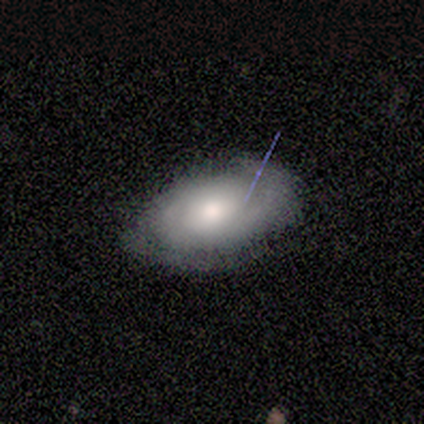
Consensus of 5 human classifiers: Overall: featured or disk (100%). Edge-on disk: no (80%). Bar: weak (50%, tied with no). Spiral arms: no (75%). Bulge size: moderate (75%). Merging: none (100%).